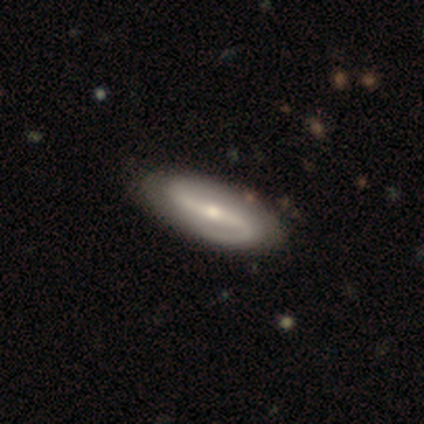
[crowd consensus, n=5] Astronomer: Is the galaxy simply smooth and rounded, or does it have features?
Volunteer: featured or disk — 100%.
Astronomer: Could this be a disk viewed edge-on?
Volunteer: no — 80%.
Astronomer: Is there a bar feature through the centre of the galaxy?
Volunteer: strong — 75%.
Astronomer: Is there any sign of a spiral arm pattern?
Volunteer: yes — 100%.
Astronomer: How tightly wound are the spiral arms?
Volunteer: medium — 50%.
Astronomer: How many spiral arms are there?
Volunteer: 2 — 100%.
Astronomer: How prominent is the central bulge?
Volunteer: moderate — 50%, tied with small at 50%.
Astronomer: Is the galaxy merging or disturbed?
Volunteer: none — 100%.